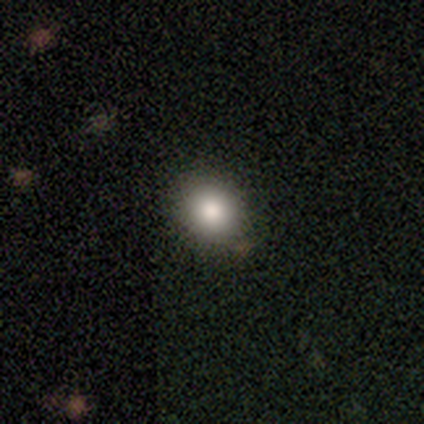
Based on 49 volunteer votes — Smooth or featured? 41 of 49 (84%) said smooth. How rounded? 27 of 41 (66%) said round. Merging? 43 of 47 (91%) said none.